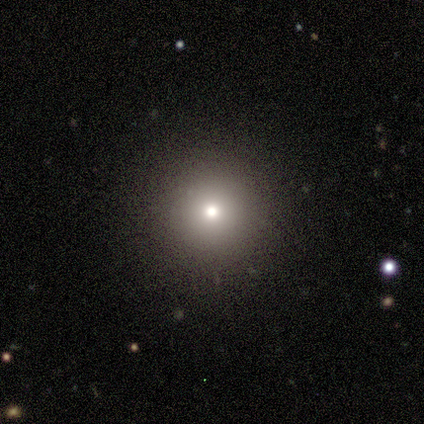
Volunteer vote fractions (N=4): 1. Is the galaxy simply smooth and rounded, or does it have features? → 100% smooth, 0% featured or disk, 0% star or artifact.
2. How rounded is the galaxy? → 100% round, 0% in between, 0% cigar-shaped.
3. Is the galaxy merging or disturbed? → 75% none, 25% minor disturbance, 0% major disturbance, 0% merger.